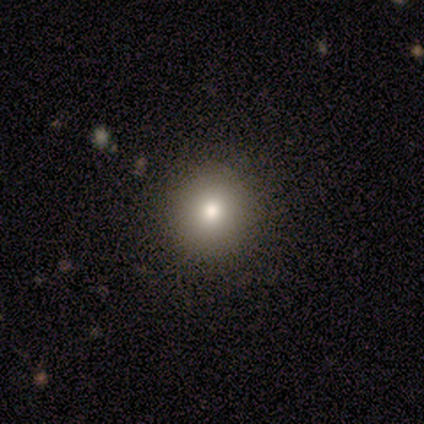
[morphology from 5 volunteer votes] Overall: smooth (40%, tied with featured or disk). How rounded: round (100%). Merging: none (100%).